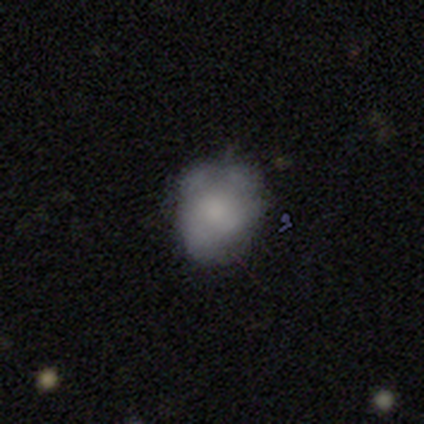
Smooth or featured: smooth — 60% (featured or disk — 20%)
How rounded: round — 67% (in between — 33%)
Merging: none — 50% (tied with minor disturbance — 50%)